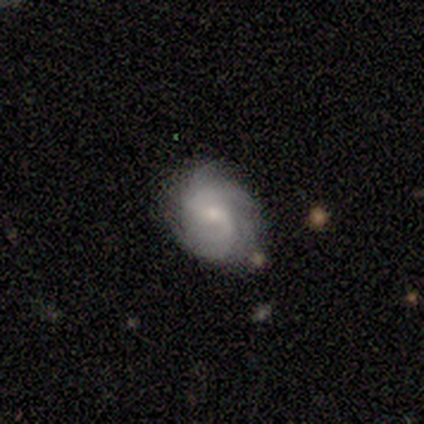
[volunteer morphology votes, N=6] smooth_or_featured: featured or disk (p=1.00)
disk_edge_on: no (p=1.00)
bar: weak (p=0.50) [tied with: no p=0.50]
has_spiral_arms: yes (p=1.00)
spiral_winding: medium (p=0.50) [alt: tight p=0.33]
spiral_arm_count: 2 (p=0.67) [alt: 3 p=0.17]
bulge_size: moderate (p=0.50) [tied with: small p=0.50]
merging: none (p=0.67) [alt: minor disturbance p=0.17]